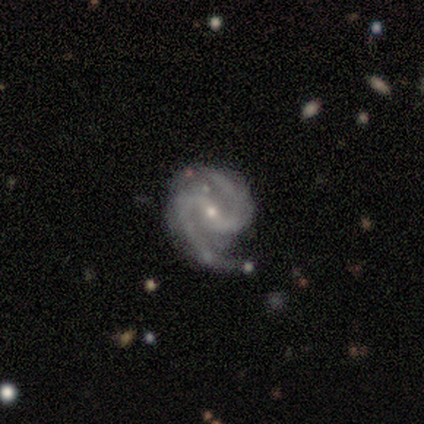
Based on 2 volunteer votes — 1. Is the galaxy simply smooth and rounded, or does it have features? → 100% featured or disk, 0% smooth, 0% star or artifact.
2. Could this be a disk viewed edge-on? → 100% no, 0% yes.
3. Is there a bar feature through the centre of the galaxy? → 50% weak (tied), 50% no (tied), 0% strong.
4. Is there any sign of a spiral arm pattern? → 100% yes, 0% no.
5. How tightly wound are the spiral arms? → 50% tight (tied), 50% medium (tied), 0% loose.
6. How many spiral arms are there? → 100% 2, 0% 1, 0% 3, 0% 4, 0% more than 4, 0% can't tell.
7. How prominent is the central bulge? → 100% small, 0% dominant, 0% large, 0% moderate, 0% none.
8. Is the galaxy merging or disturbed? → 100% none, 0% minor disturbance, 0% major disturbance, 0% merger.